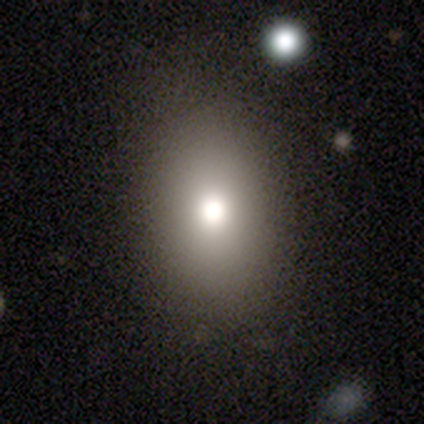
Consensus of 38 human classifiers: Smooth or featured? 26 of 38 (68%) said smooth. How rounded? 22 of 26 (85%) said in between. Merging? 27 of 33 (82%) said none.